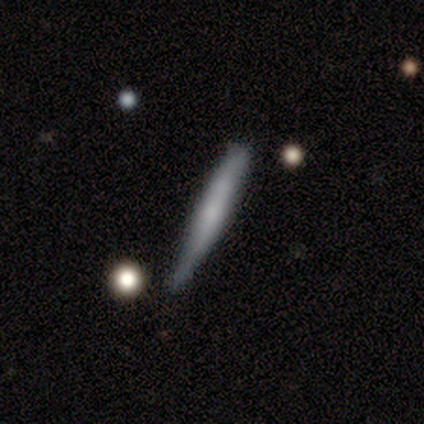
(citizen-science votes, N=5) This appears to be a smooth galaxy with no disk features (80%) that is cigar-shaped (100%). Merging: minor disturbance (80%).